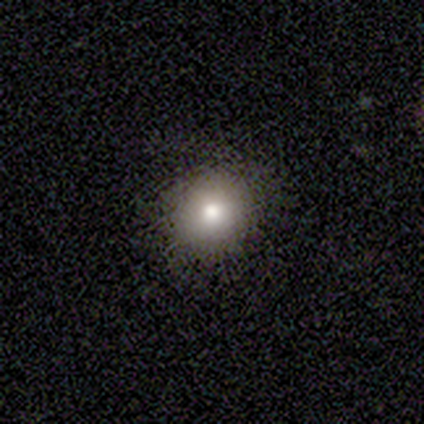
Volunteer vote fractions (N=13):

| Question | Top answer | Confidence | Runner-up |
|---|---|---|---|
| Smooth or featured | smooth | 92% | featured or disk (8%) |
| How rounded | round | 92% | in between (8%) |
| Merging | none | 100% | — |